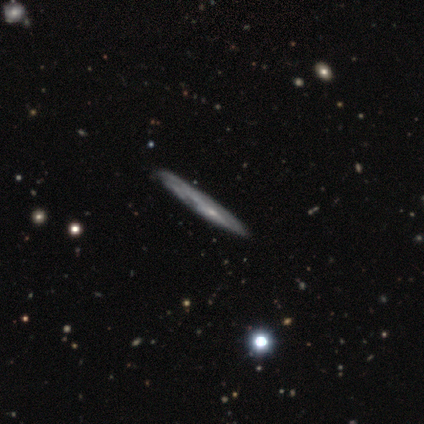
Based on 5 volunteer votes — Smooth or featured?
  - featured or disk: 80% *
  - smooth: 20%
  - star or artifact: 0%
Edge-on disk?
  - yes: 50% * (tied)
  - no: 50% * (tied)
Edge-on bulge?
  - none: 100% *
  - boxy: 0%
  - rounded: 0%
Merging?
  - none: 80% *
  - minor disturbance: 20%
  - major disturbance: 0%
  - merger: 0%